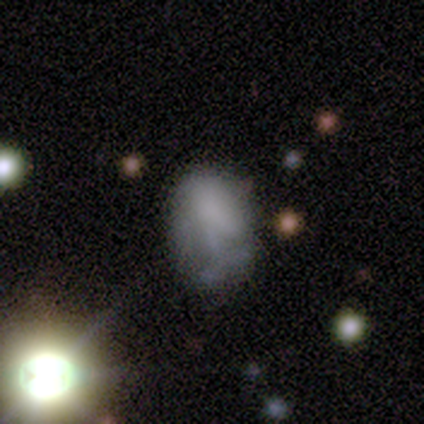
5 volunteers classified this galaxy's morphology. smooth 40% (tied), featured or disk 40% (tied), star or artifact 20%. Down the decision tree: how rounded — in between (100%); merging — minor disturbance (50%).